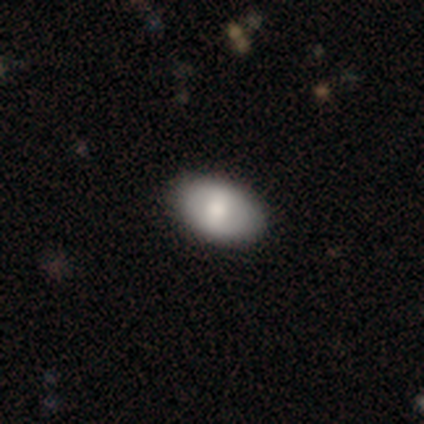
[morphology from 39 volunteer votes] smooth_or_featured: smooth (p=0.74) [alt: featured or disk p=0.26]
how_rounded: in between (p=0.90) [alt: round p=0.10]
merging: none (p=0.62) [alt: minor disturbance p=0.08]